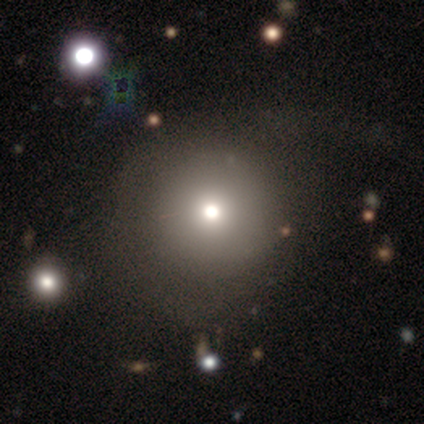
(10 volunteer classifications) This appears to be a smooth galaxy with no disk features (50%) that is round (100%). Merging: none (57%).